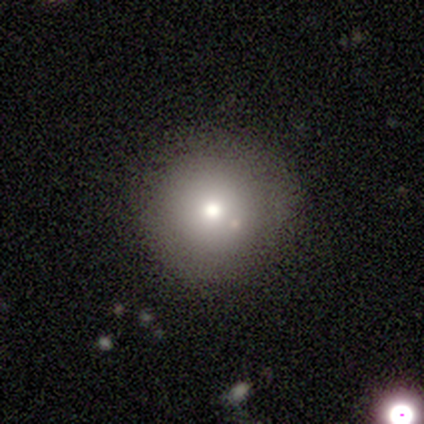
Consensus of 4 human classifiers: Smooth or featured?
  - smooth: 75% *
  - star or artifact: 25%
  - featured or disk: 0%
How rounded?
  - round: 67% *
  - in between: 33%
  - cigar-shaped: 0%
Merging?
  - none: 67% *
  - minor disturbance: 33%
  - major disturbance: 0%
  - merger: 0%